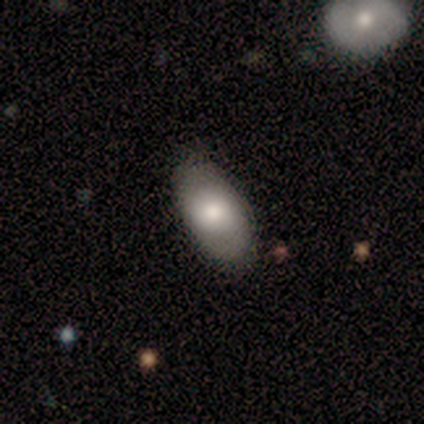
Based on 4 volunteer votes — Volunteers were most divided on "merging": none: 50%, minor disturbance: 25%, major disturbance: 25%, merger: 0%. More confident: smooth or featured — smooth (75%); how rounded — in between (67%).